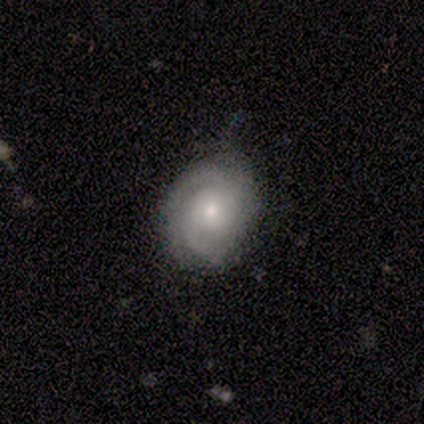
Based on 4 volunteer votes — Smooth or featured? smooth (50%, tied with featured or disk)
How rounded? round (50%, tied with in between)
Merging? none (50%, tied with minor disturbance)